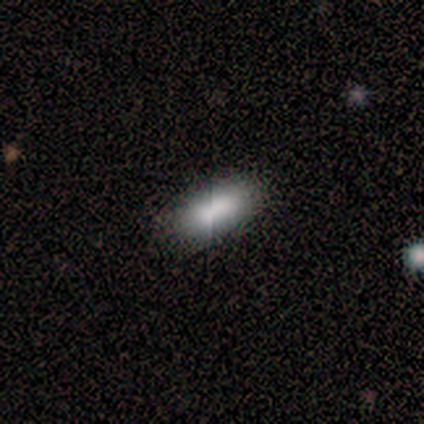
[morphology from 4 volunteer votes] smooth-or-featured: smooth: 75% | featured or disk: 25% | star or artifact: 0%
  how-rounded: in between: 67% | cigar-shaped: 33% | round: 0%
  merging: none: 100% | minor disturbance: 0% | major disturbance: 0% | merger: 0%